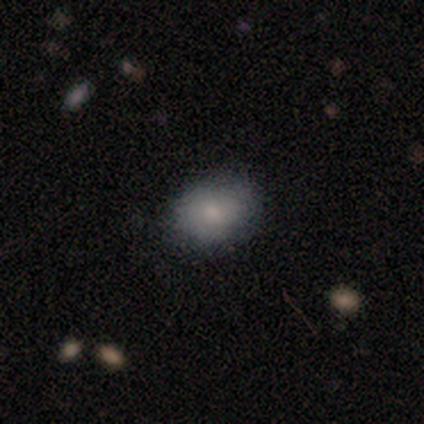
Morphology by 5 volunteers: Smooth or featured? smooth (100%)
How rounded? in between (80%)
Merging? none (100%)